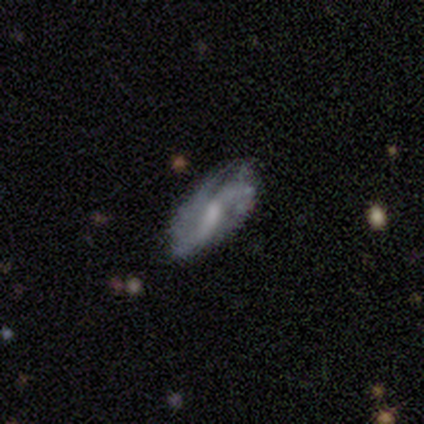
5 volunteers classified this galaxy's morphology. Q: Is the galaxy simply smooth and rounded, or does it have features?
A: featured or disk — 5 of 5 (100%).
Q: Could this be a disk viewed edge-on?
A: no — 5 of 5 (100%).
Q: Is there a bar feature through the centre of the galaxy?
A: no — 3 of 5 (60%).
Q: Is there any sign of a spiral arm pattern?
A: yes — 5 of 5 (100%).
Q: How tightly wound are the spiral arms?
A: loose — 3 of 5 (60%).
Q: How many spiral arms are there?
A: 2 — 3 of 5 (60%).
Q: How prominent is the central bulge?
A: small — 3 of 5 (60%).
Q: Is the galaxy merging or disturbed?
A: none — 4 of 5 (80%).